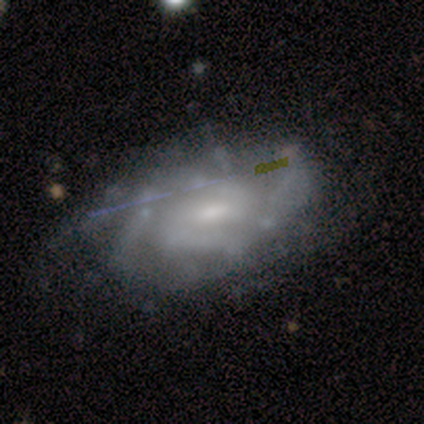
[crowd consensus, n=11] Volunteers were most divided on "spiral arm count": 2: 44%, can't tell: 33%, 4: 22%, 1: 0%, 3: 0%, more than 4: 0%. More confident: edge-on disk — no (100%); smooth or featured — featured or disk (91%); spiral arms — yes (90%); merging — none (80%); spiral winding — medium (67%); bar — weak (60%); bulge size — small (50%).